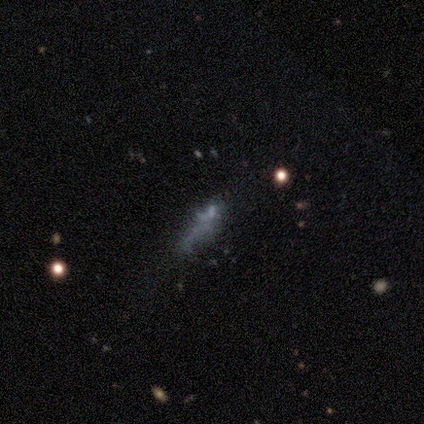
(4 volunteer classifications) Smooth or featured: star or artifact — 50% (smooth — 25%)